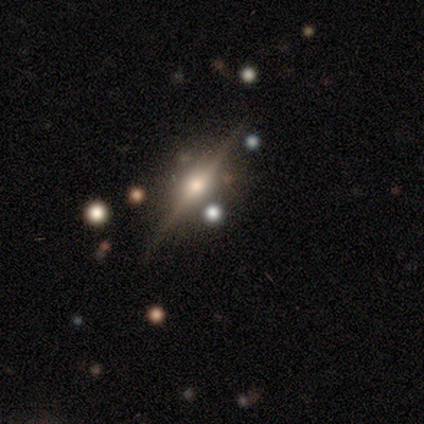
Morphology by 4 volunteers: Overall: featured or disk (50%, tied with star or artifact). Edge-on disk: yes (100%). Edge-on bulge: rounded (100%). Merging: none (100%).